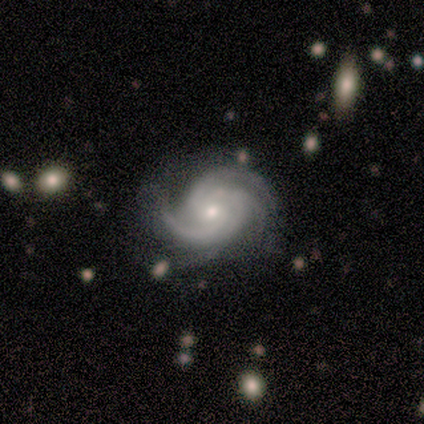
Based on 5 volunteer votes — smooth-or-featured: featured or disk: 100% | smooth: 0% | star or artifact: 0%
  disk-edge-on: no: 100% | yes: 0%
    bar: no: 100% | strong: 0% | weak: 0%
    has-spiral-arms: yes: 100% | no: 0%
      spiral-winding: tight: 60% | medium: 40% | loose: 0%
      spiral-arm-count: 3: 80% | 2: 20% | 1: 0% | 4: 0% | more than 4: 0% | can't tell: 0%
    bulge-size: small: 60% | moderate: 40% | dominant: 0% | large: 0% | none: 0%
  merging: none: 60% | minor disturbance: 20% | major disturbance: 20% | merger: 0%